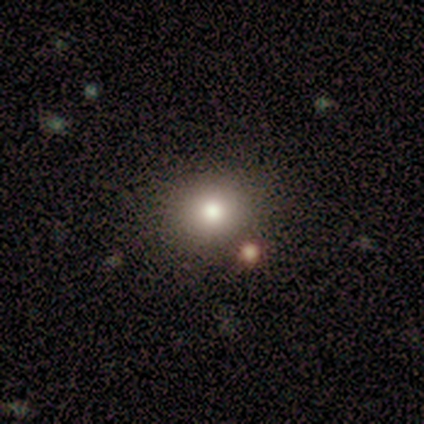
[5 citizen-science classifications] This appears to be a smooth galaxy with no disk features (40%, tied with featured or disk) that is round (100%). Merging: none (100%).